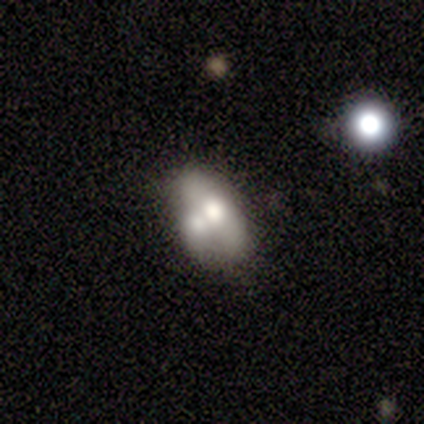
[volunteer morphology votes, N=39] smooth_or_featured: smooth (p=0.64) [alt: featured or disk p=0.33]
how_rounded: in between (p=0.80) [alt: round p=0.12]
merging: merger (p=0.68) [alt: none p=0.16]